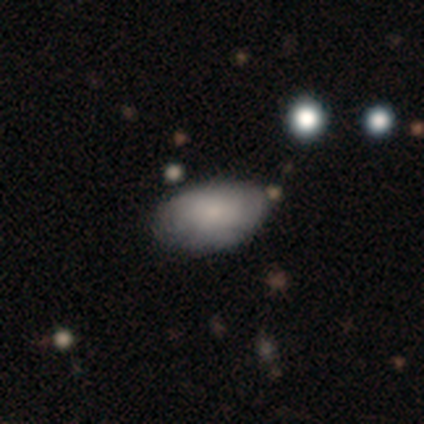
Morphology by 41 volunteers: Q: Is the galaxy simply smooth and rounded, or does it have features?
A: smooth — 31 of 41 (76%).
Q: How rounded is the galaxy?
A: in between — 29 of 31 (94%).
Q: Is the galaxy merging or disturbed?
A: none — 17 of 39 (44%).